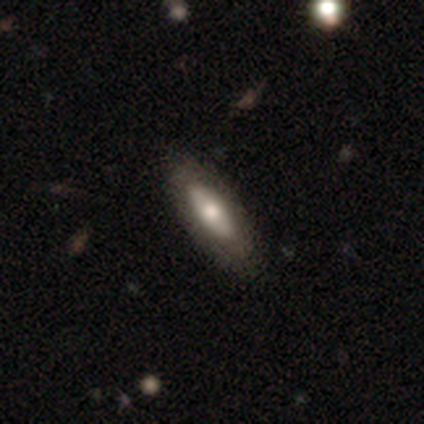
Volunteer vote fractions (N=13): smooth-or-featured: featured or disk: 62% | smooth: 38% | star or artifact: 0%
  disk-edge-on: yes: 50% (tied) | no: 50% (tied)
    edge-on-bulge: rounded: 50% | boxy: 25% | none: 25%
  merging: none: 77% | minor disturbance: 15% | major disturbance: 8% | merger: 0%